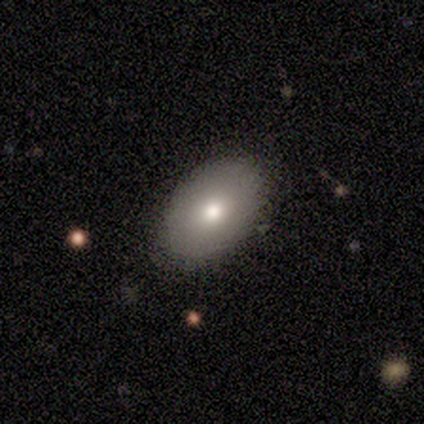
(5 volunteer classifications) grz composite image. It shows a smooth galaxy with no disk features (60%) that is in between round and cigar-shaped (100%). Merging: none (50%, tied with minor disturbance).